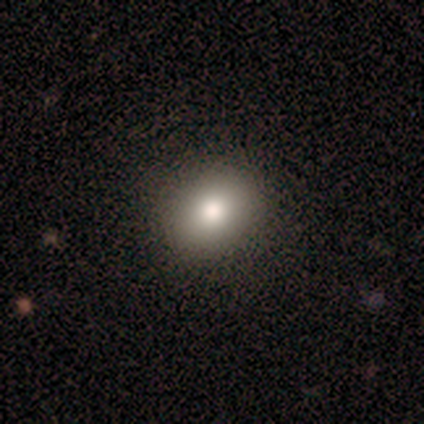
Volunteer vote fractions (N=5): Smooth or featured: smooth — 100%
How rounded: round — 60% (in between — 40%)
Merging: none — 80% (minor disturbance — 20%)